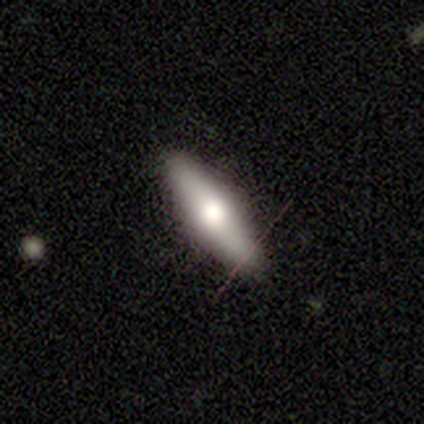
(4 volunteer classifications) Smooth or featured? 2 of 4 (50%) said smooth. How rounded? 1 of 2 (50%, tied with cigar-shaped) said in between. Merging? 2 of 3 (67%) said none.